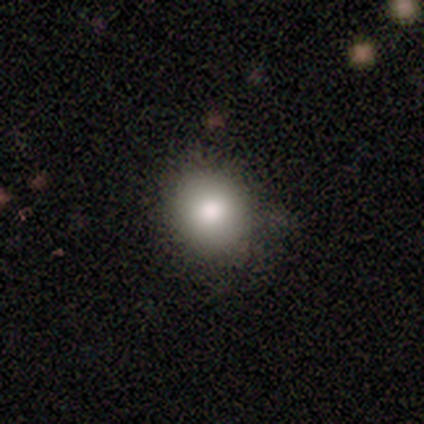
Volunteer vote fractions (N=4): Smooth or featured? smooth (100%)
How rounded? round (75%)
Merging? none (75%)